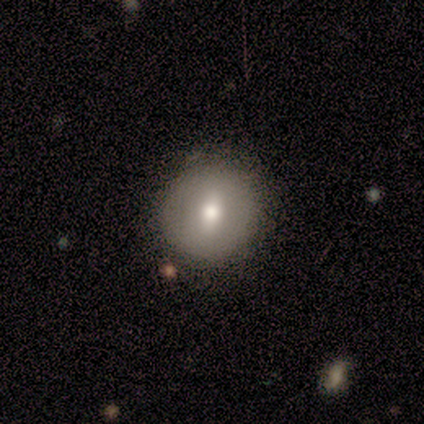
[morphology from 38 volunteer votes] smooth 63%, featured or disk 34%, star or artifact 3%. Down the decision tree: how rounded — round (88%); merging — none (46%).